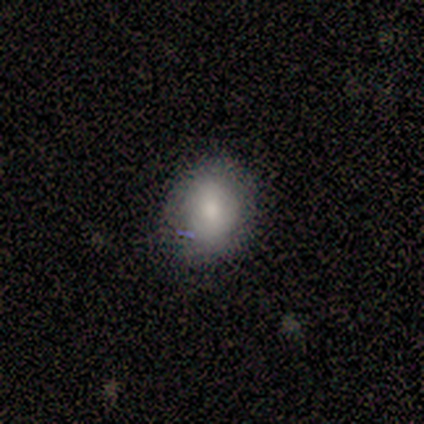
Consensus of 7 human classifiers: This is clearly a smooth galaxy (86%). How rounded: likely in between (67%). Merging: clearly none (100%).